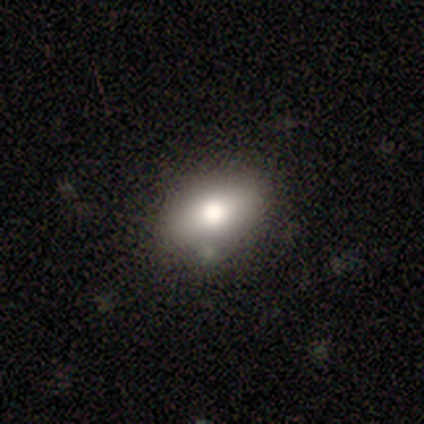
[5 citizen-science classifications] A smooth galaxy with no disk features (80%) that is in between round and cigar-shaped (100%).

Vote fractions:
- Smooth or featured? smooth: 80% / featured or disk: 20% / star or artifact: 0%
- How rounded? in between: 100% / round: 0% / cigar-shaped: 0%
- Merging? none: 60% / minor disturbance: 20% / merger: 20% / major disturbance: 0%